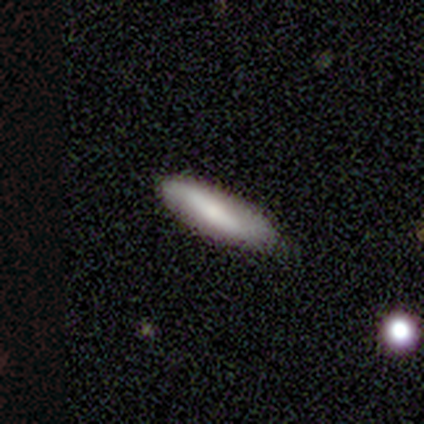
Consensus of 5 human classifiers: Smooth or featured? featured or disk (60%)
Edge-on disk? yes (67%)
Edge-on bulge? none (100%)
Merging? none (80%)